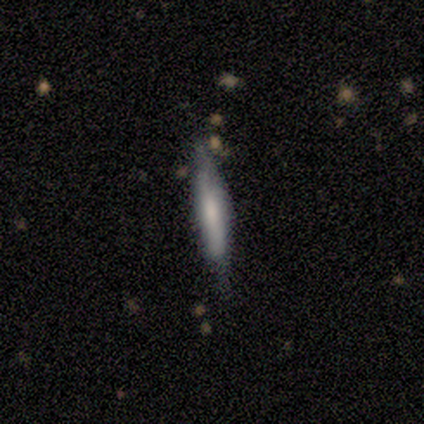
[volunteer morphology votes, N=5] Volunteers were most divided on "smooth or featured": smooth: 80%, featured or disk: 20%, star or artifact: 0%. More confident: how rounded — cigar-shaped (100%); merging — none (80%).